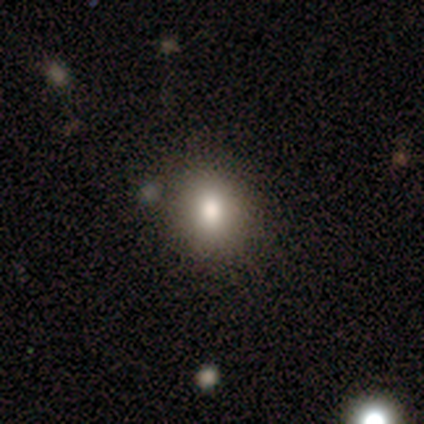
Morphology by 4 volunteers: Overall: smooth (100%). How rounded: round (100%). Merging: none (75%).